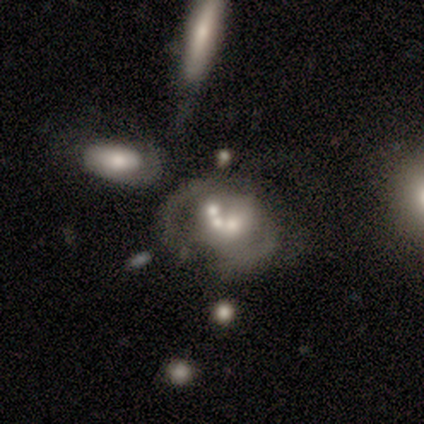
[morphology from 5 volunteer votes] type=featured or disk (80%); edge-on=no (100%); bar=no (100%); spiral arms=no (100%); bulge=moderate (75%); merging=none (50%, tied with merger).